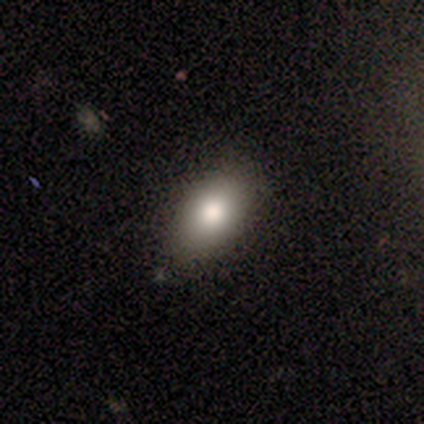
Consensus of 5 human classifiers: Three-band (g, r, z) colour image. It shows a smooth galaxy with no disk features (60%) that is in between round and cigar-shaped (100%). Merging: minor disturbance (80%).